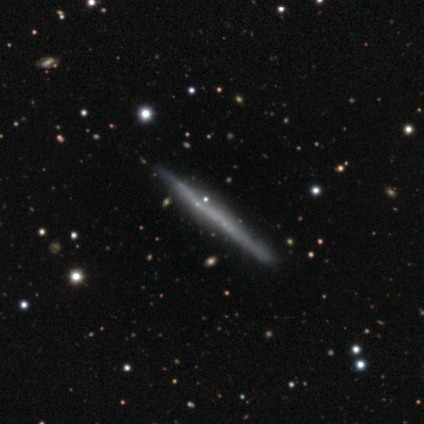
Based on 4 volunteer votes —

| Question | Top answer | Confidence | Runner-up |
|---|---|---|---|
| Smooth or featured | smooth | 50% | tied: featured or disk (50%) |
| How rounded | cigar-shaped | 100% | — |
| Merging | none | 75% | minor disturbance (25%) |